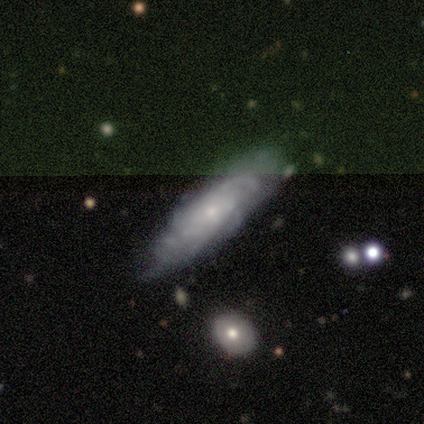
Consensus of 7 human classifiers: This is likely a featured or disk galaxy (71%). It is clearly not viewed edge-on (100%). Bar: clearly no (80%). Spiral arm pattern: clearly yes (100%). Spiral arm count: likely can't tell (60%). Spiral winding: clearly medium (80%). Central bulge: clearly small (80%). Merging: clearly none (86%).